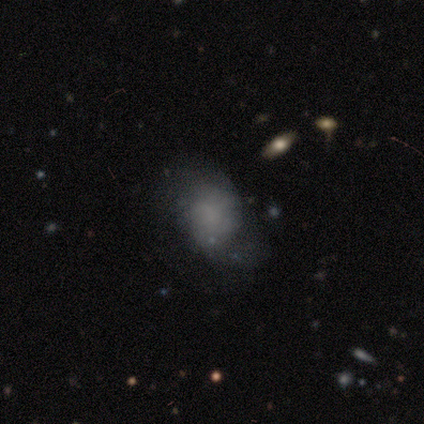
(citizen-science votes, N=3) Smooth or featured? smooth (33%, tied with featured or disk and star or artifact)
How rounded? round (100%)
Merging? none (50%, tied with minor disturbance)